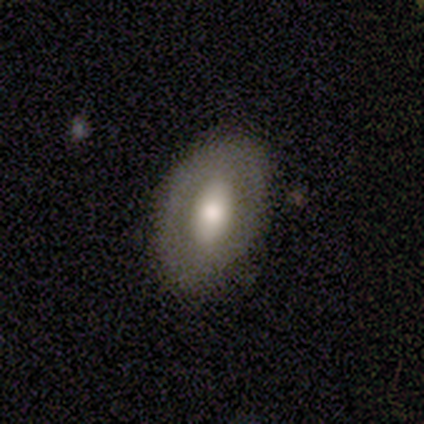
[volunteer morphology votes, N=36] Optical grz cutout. It shows a smooth galaxy with no disk features (47%, tied with featured or disk) that is in between round and cigar-shaped (94%). Merging: none (82%).